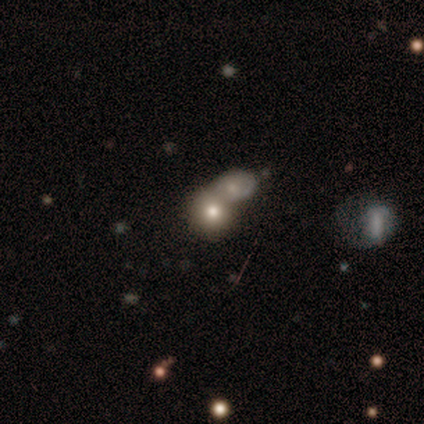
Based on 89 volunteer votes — smooth 65%, featured or disk 21%, star or artifact 13%. Down the decision tree: how rounded — round (81%); merging — merger (65%).